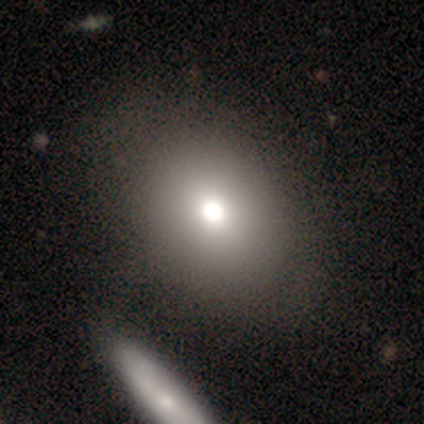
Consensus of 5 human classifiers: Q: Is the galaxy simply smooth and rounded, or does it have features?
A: smooth — 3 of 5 (60%).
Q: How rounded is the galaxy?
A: round — 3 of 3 (100%).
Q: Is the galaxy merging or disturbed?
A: none — 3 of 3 (100%).